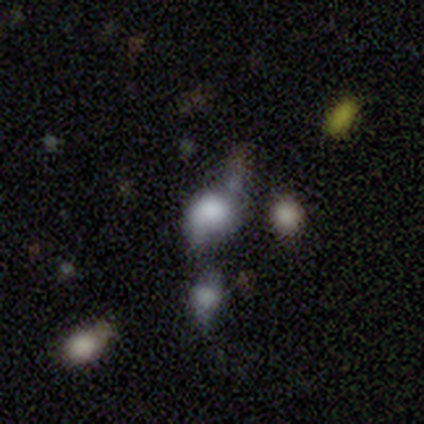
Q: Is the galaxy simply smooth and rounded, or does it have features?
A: smooth — 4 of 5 (80%).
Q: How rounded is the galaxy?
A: round — 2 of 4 (50%, tied with in between).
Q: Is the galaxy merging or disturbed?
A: minor disturbance — 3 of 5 (60%).